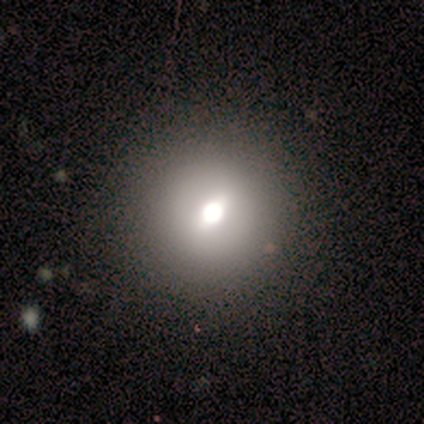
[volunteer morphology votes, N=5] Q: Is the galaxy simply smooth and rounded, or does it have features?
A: smooth — 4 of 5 (80%).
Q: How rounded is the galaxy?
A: round — 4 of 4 (100%).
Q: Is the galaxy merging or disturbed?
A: none — 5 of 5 (100%).